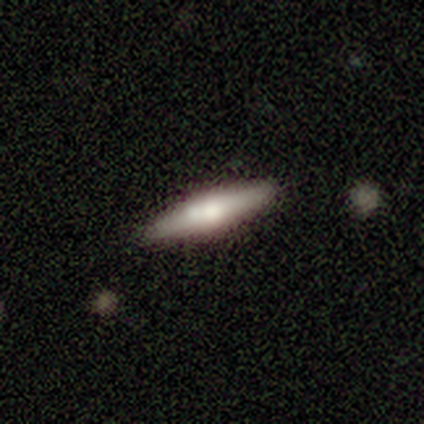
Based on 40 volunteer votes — Smooth or featured?
  - smooth: 52% *
  - featured or disk: 42%
  - star or artifact: 5%
How rounded?
  - cigar-shaped: 86% *
  - in between: 14%
  - round: 0%
Merging?
  - none: 92% *
  - minor disturbance: 8%
  - major disturbance: 0%
  - merger: 0%